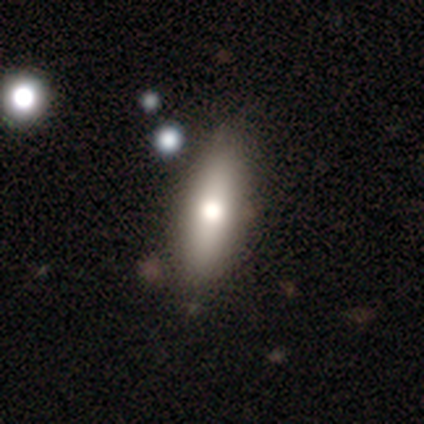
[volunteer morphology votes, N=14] smooth 79%, featured or disk 14%, star or artifact 7%. Down the decision tree: how rounded — in between (55%); merging — none (100%).